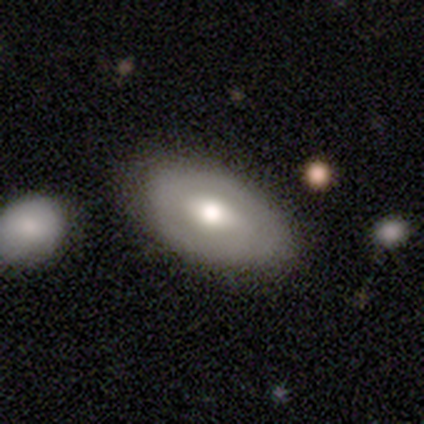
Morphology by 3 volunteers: Smooth or featured?
  - featured or disk: 100% *
  - smooth: 0%
  - star or artifact: 0%
Edge-on disk?
  - no: 100% *
  - yes: 0%
Bar?
  - no: 67% *
  - weak: 33%
  - strong: 0%
Spiral arms?
  - no: 67% *
  - yes: 33%
Bulge size?
  - moderate: 100% *
  - dominant: 0%
  - large: 0%
  - small: 0%
  - none: 0%
Merging?
  - none: 67% *
  - minor disturbance: 33%
  - major disturbance: 0%
  - merger: 0%